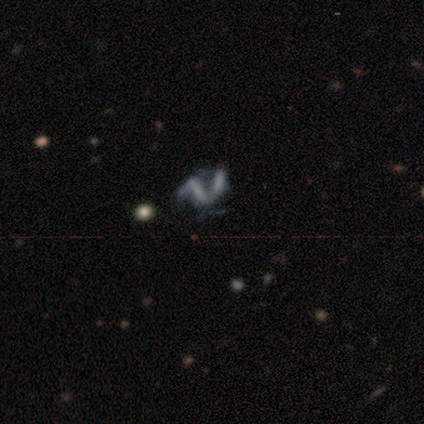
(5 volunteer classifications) Q: Smooth or featured?
A: smooth (40%); tied with: featured or disk (40%)
Q: How rounded?
A: in between (100%)
Q: Merging?
A: merger (75%); runner-up: major disturbance (25%)